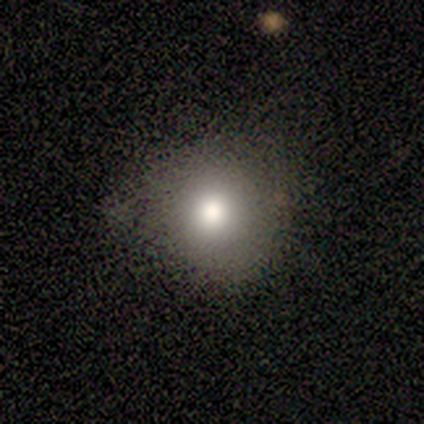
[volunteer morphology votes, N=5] Q: Smooth or featured?
A: smooth (80%); runner-up: star or artifact (20%)
Q: How rounded?
A: round (100%)
Q: Merging?
A: none (75%); runner-up: minor disturbance (25%)